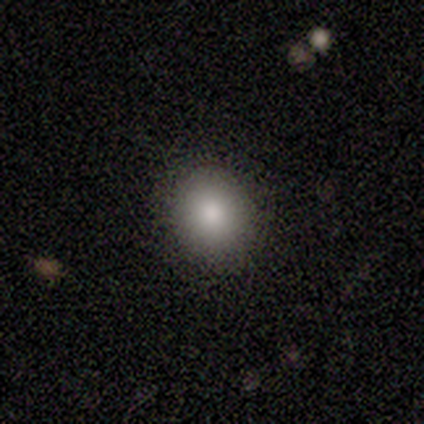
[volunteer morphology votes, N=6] Overall: smooth (83%). How rounded: round (60%; in between 40%). Merging: none (100%).